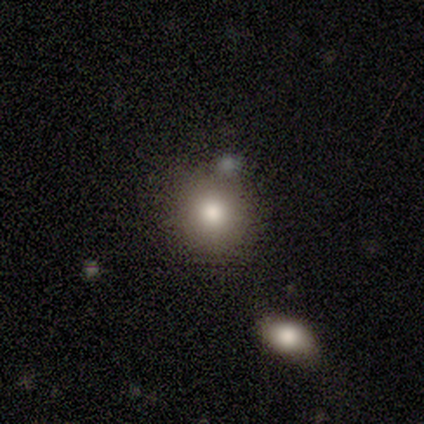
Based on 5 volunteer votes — smooth-or-featured: smooth: 80% | star or artifact: 20% | featured or disk: 0%
  how-rounded: round: 75% | in between: 25% | cigar-shaped: 0%
  merging: none: 100% | minor disturbance: 0% | major disturbance: 0% | merger: 0%